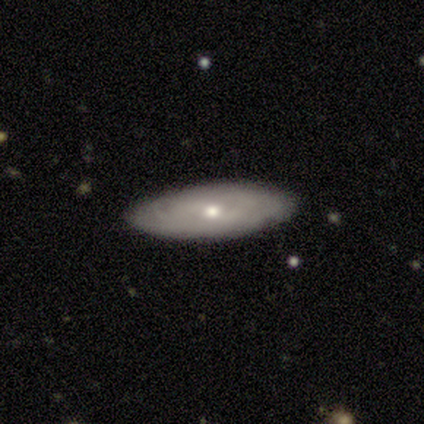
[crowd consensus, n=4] Smooth or featured? 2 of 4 (50%, tied with featured or disk) said smooth. How rounded? 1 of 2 (50%, tied with cigar-shaped) said in between. Merging? 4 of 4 (100%) said none.